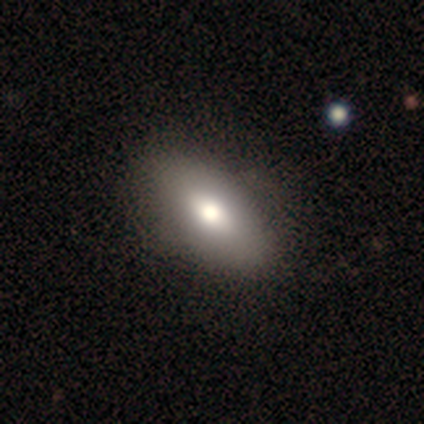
Smooth or featured? smooth (75%)
How rounded? in between (100%)
Merging? none (51%)